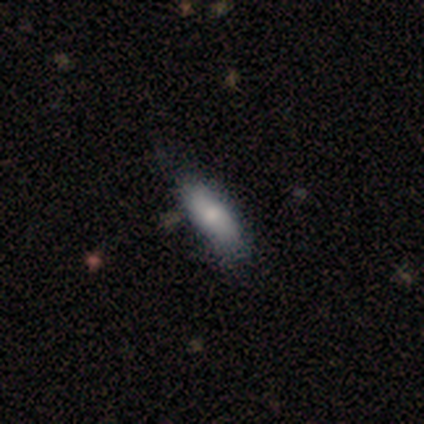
A smooth galaxy with no disk features (77%) that is in between round and cigar-shaped (73%).

Vote fractions:
- Smooth or featured? smooth: 77% / featured or disk: 23% / star or artifact: 0%
- How rounded? in between: 73% / cigar-shaped: 27% / round: 0%
- Merging? none: 44% / minor disturbance: 18% / major disturbance: 5% / merger: 0%